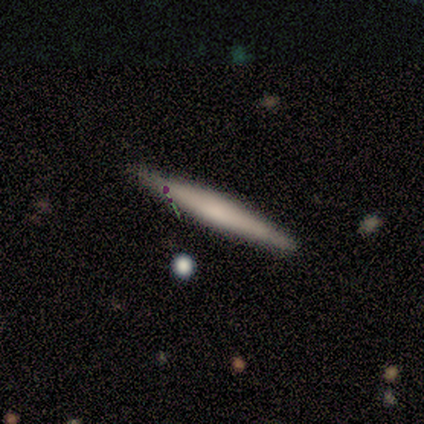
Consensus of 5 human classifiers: Overall: featured or disk (60%; smooth 40%). Edge-on disk: yes (67%; no 33%). Edge-on bulge: none (50%, tied with rounded). Merging: none (100%).